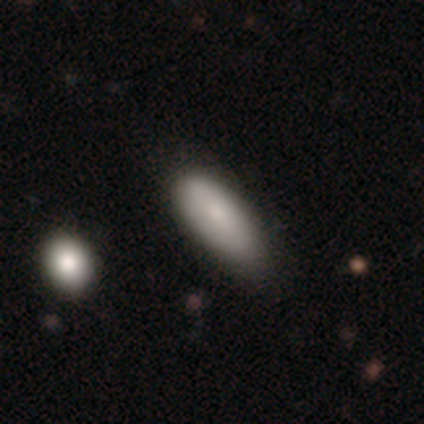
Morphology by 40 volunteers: smooth_or_featured: smooth (p=0.75) [alt: star or artifact p=0.17]
how_rounded: in between (p=0.90) [alt: cigar-shaped p=0.10]
merging: none (p=0.55) [alt: minor disturbance p=0.15]